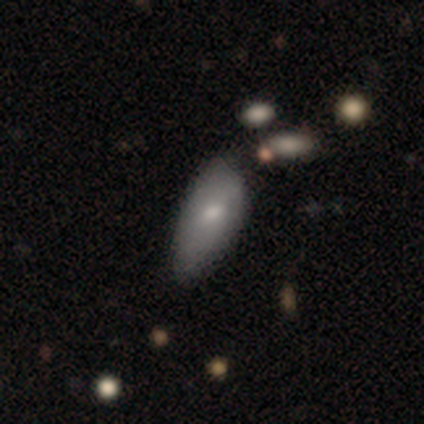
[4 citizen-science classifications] Smooth or featured?
  - smooth: 75% *
  - star or artifact: 25%
  - featured or disk: 0%
How rounded?
  - in between: 67% *
  - cigar-shaped: 33%
  - round: 0%
Merging?
  - none: 33% * (tied)
  - minor disturbance: 33% * (tied)
  - major disturbance: 33% * (tied)
  - merger: 0%